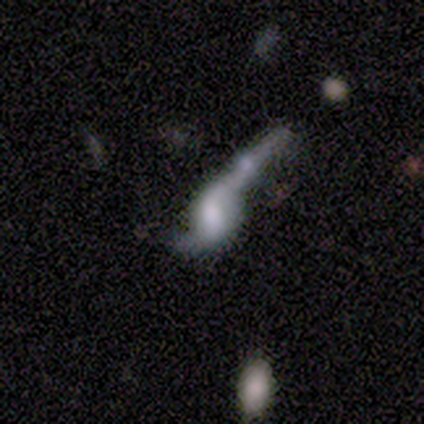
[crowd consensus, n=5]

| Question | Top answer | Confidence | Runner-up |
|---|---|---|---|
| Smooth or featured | featured or disk | 80% | smooth (20%) |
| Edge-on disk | no | 100% | — |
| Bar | no | 75% | strong (25%) |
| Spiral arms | yes | 75% | no (25%) |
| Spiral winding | loose | 100% | — |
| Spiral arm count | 2 | 67% | 1 (33%) |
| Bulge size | large | 25% | tied: moderate (25%), small (25%), none (25%) |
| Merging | merger | 60% | minor disturbance (20%) |